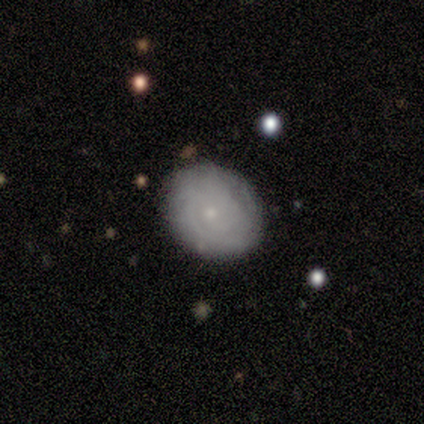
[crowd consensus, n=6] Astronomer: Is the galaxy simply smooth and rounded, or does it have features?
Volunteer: smooth — 67%.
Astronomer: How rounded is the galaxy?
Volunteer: round — 50%, tied with in between at 50%.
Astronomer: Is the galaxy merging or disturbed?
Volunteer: none — 100%.